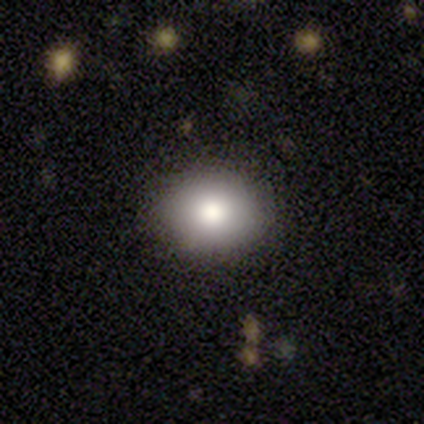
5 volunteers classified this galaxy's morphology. Smooth or featured? smooth (80%)
How rounded? round (75%)
Merging? none (100%)